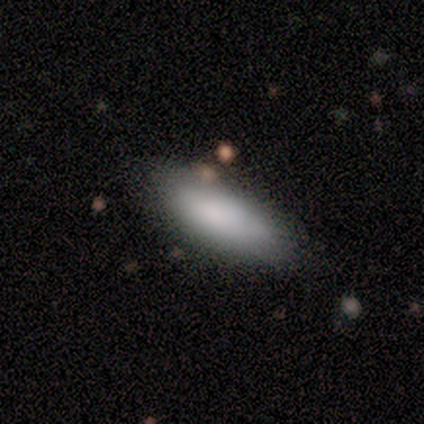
smooth_or_featured: smooth (p=0.86) [alt: featured or disk p=0.14]
how_rounded: in between (p=0.83) [alt: cigar-shaped p=0.17]
merging: none (p=0.71) [alt: minor disturbance p=0.29]